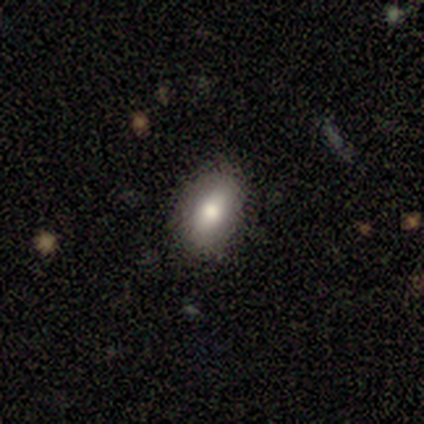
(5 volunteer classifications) smooth_or_featured: smooth (p=0.60) [alt: featured or disk p=0.40]
how_rounded: in between (p=0.67) [alt: round p=0.33]
merging: none (p=1.00)